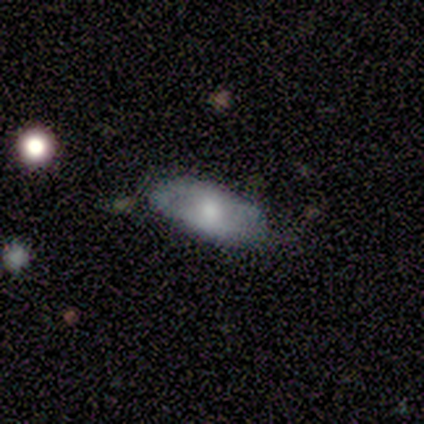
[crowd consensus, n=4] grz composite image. It shows a smooth galaxy with no disk features (50%, tied with featured or disk) that is in between round and cigar-shaped (100%). Merging: none (100%).